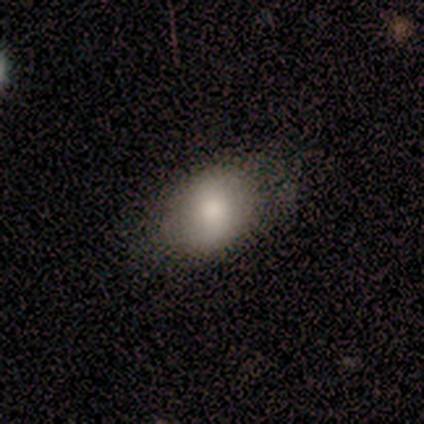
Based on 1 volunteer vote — smooth_or_featured: smooth (p=1.00)
how_rounded: in between (p=1.00)
merging: minor disturbance (p=1.00)